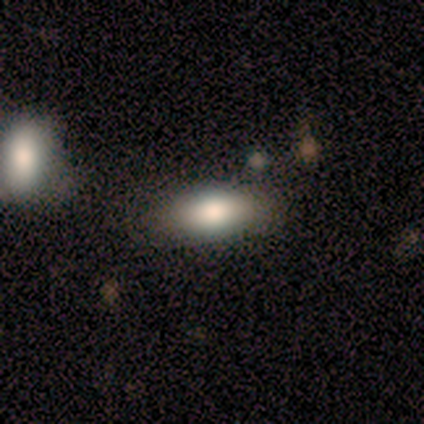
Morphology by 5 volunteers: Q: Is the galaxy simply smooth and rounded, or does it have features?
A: smooth — 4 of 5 (80%).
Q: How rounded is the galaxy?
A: in between — 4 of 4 (100%).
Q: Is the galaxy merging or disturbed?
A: none — 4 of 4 (100%).